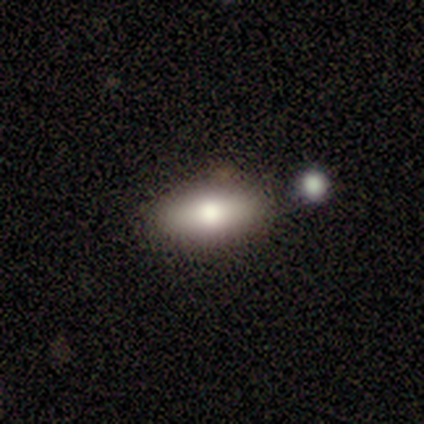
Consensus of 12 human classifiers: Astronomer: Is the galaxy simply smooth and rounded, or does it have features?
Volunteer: smooth — 67%.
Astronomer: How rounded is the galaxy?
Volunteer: in between — 88%.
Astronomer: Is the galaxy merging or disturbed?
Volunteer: none — 60%.